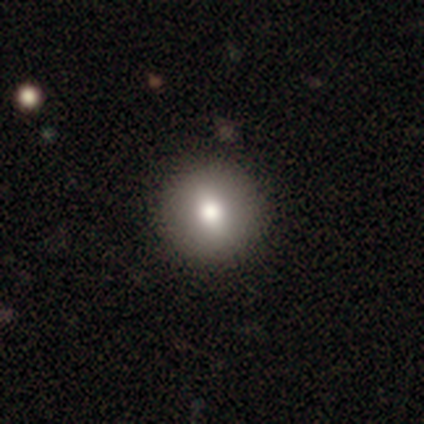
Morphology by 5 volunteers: A smooth galaxy with no disk features (80%) that is round (100%). Merging: none (75%).